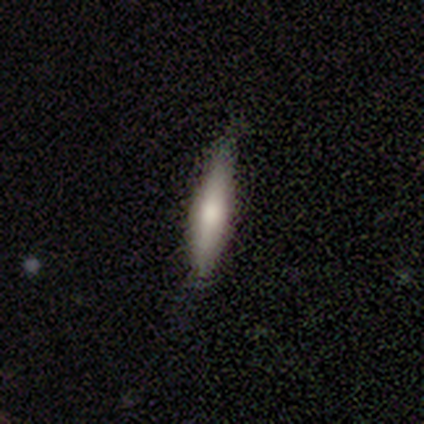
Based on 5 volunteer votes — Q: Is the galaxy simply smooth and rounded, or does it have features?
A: smooth — 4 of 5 (80%).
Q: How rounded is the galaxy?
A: cigar-shaped — 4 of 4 (100%).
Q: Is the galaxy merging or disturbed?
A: none — 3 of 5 (60%).